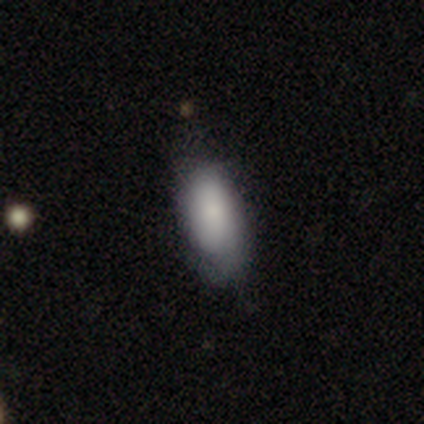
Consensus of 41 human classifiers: A smooth galaxy with no disk features (88%) that is in between round and cigar-shaped (83%). Merging: none (76%).